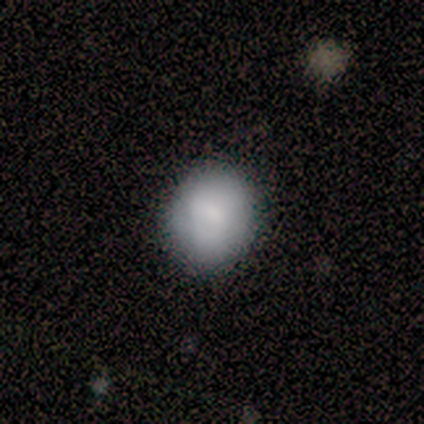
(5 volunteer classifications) Q: Smooth or featured?
A: smooth (100%)
Q: How rounded?
A: round (80%); runner-up: in between (20%)
Q: Merging?
A: none (80%); runner-up: minor disturbance (20%)